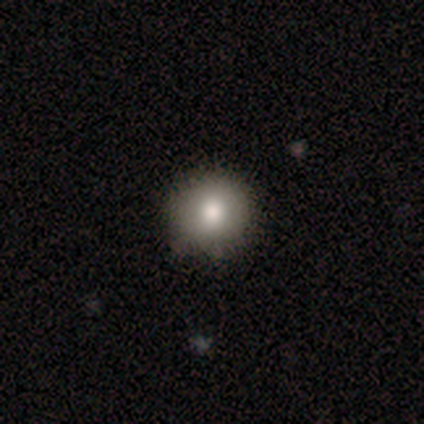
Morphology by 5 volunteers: Consensus on every question: smooth or featured — smooth (100%); how rounded — round (100%); merging — none (100%).